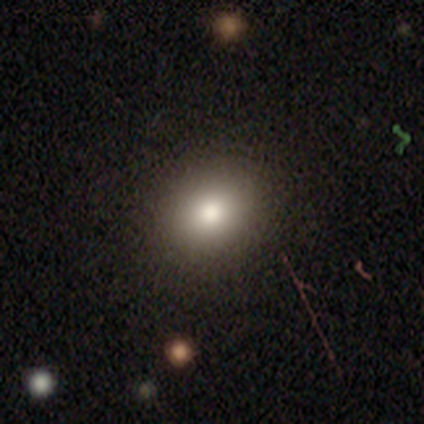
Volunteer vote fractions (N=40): A smooth galaxy with no disk features (72%) that is round (79%). Merging: none (79%).